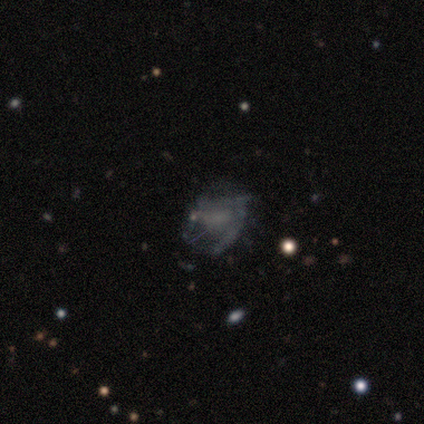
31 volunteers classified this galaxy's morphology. Smooth or featured: featured or disk — 52% (smooth — 32%)
Edge-on disk: no — 100%
Bar: no — 69% (weak — 25%)
Spiral arms: no — 69% (yes — 31%)
Bulge size: none — 81% (small — 12%)
Merging: none — 54% (major disturbance — 27%)